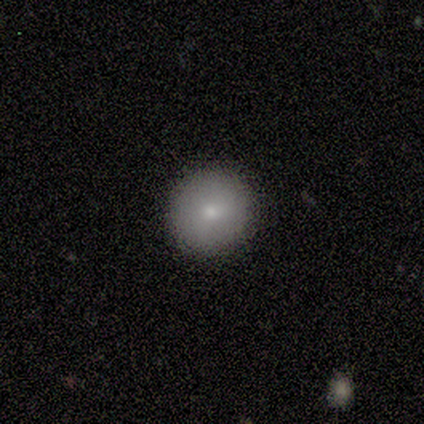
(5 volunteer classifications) smooth-or-featured: smooth: 100% | featured or disk: 0% | star or artifact: 0%
  how-rounded: round: 100% | in between: 0% | cigar-shaped: 0%
  merging: none: 100% | minor disturbance: 0% | major disturbance: 0% | merger: 0%